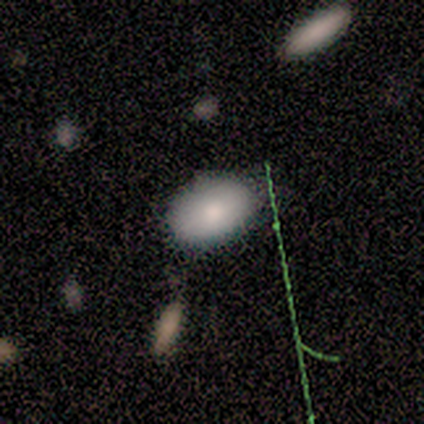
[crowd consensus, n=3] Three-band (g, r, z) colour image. It shows a smooth galaxy with no disk features (67%) that is round (50%, tied with in between). Merging: none (100%).